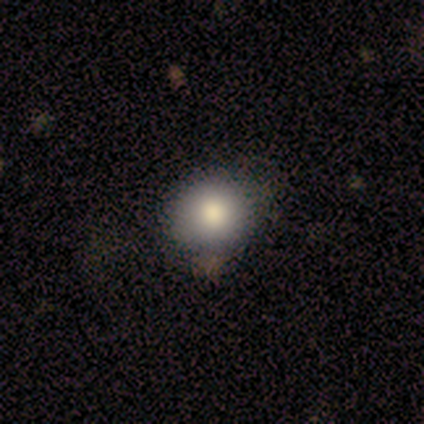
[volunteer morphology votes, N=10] A smooth galaxy with no disk features (70%) that is in between round and cigar-shaped (57%). Merging: none (67%).